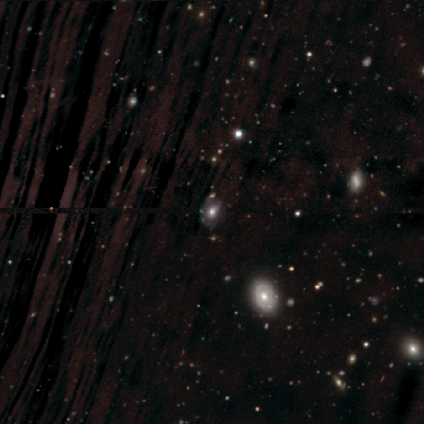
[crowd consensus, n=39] Smooth or featured: smooth — 41% (featured or disk — 38%)
How rounded: in between — 56% (round — 44%)
Merging: none — 55% (minor disturbance — 13%)